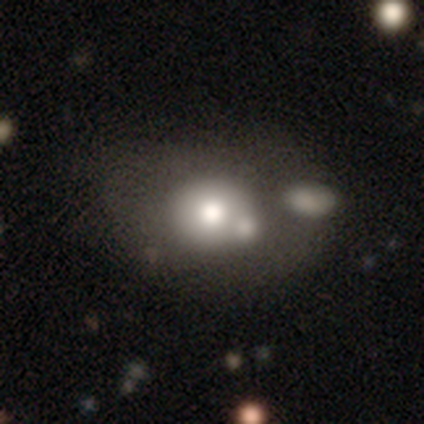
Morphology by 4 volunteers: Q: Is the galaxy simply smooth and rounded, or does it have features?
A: featured or disk — 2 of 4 (50%).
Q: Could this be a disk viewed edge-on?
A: no — 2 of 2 (100%).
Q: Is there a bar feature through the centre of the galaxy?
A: no — 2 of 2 (100%).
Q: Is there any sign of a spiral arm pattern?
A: no — 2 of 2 (100%).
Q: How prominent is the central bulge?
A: large — 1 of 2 (50%, tied with moderate).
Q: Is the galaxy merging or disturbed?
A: none — 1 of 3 (33%, tied with minor disturbance and major disturbance).